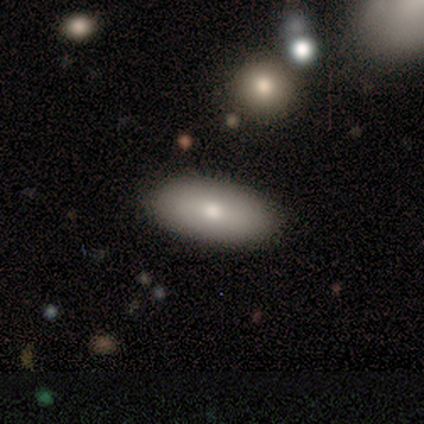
Q: Smooth or featured?
A: smooth (100%)
Q: How rounded?
A: in between (100%)
Q: Merging?
A: none (100%)